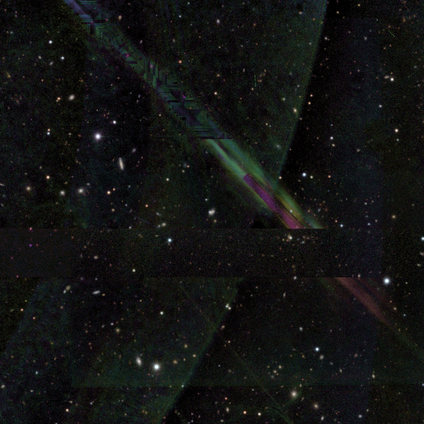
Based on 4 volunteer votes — Consensus on every question: smooth or featured — star or artifact (100%).